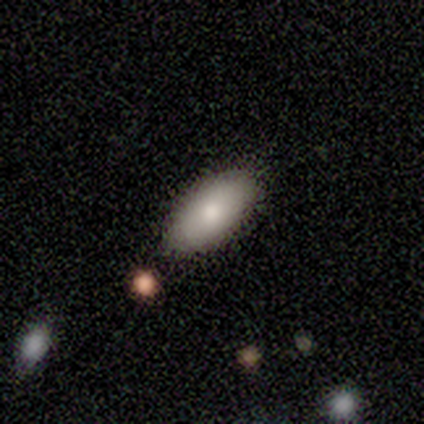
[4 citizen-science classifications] This appears to be a smooth galaxy with no disk features (100%) that is in between round and cigar-shaped (75%). Merging: none (100%).